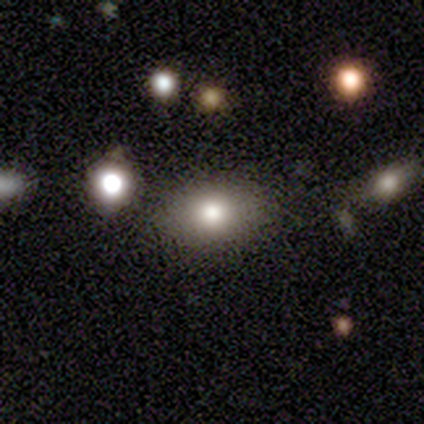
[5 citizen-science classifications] Overall: smooth (80%). How rounded: round (50%, tied with in between). Merging: none (80%).